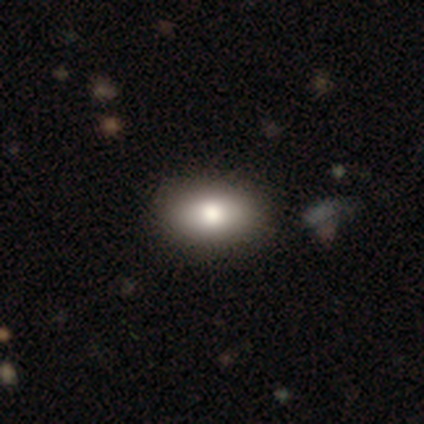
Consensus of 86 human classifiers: Q: Smooth or featured?
A: smooth (74%); runner-up: featured or disk (13%)
Q: How rounded?
A: in between (92%); runner-up: round (8%)
Q: Merging?
A: none (88%); runner-up: minor disturbance (9%)